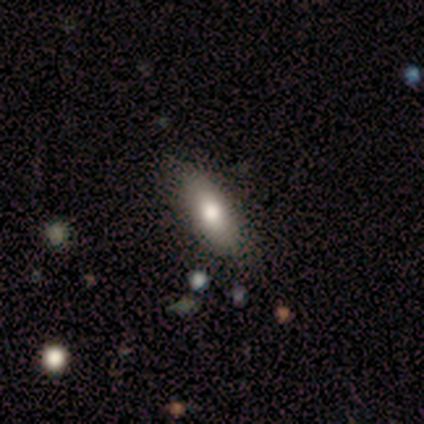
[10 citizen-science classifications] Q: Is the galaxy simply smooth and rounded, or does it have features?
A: smooth — 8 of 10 (80%).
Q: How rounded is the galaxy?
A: in between — 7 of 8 (88%).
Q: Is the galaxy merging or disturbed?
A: none — 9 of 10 (90%).